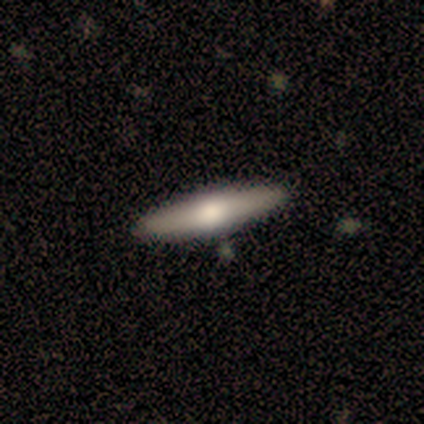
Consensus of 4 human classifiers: smooth_or_featured: smooth (p=0.50) [alt: featured or disk p=0.25]
how_rounded: in between (p=0.50) [tied with: cigar-shaped p=0.50]
merging: none (p=0.67) [alt: merger p=0.33]